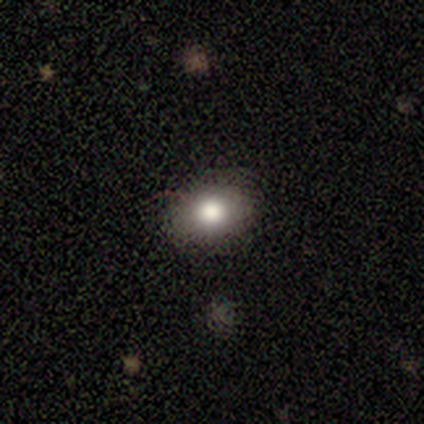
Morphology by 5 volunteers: smooth-or-featured: smooth: 80% | star or artifact: 20% | featured or disk: 0%
  how-rounded: in between: 75% | round: 25% | cigar-shaped: 0%
  merging: none: 100% | minor disturbance: 0% | major disturbance: 0% | merger: 0%